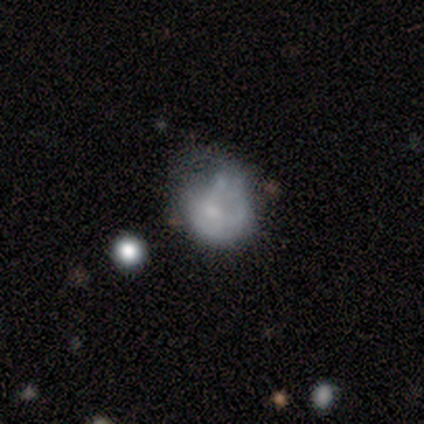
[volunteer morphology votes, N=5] Overall: smooth (60%; featured or disk 20%). How rounded: in between (67%; round 33%). Merging: none (50%; minor disturbance 25%).